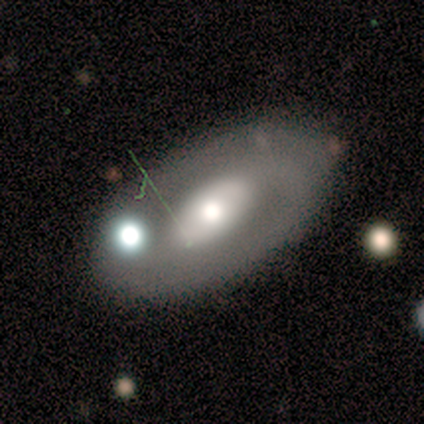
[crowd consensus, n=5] Overall: featured or disk (80%). Edge-on disk: no (100%). Bar: no (75%). Spiral arms: yes (75%). Spiral arm count: 1 (67%; can't tell 33%). Spiral winding: tight (67%; loose 33%). Bulge size: moderate (75%). Merging: none (40%, tied with merger).